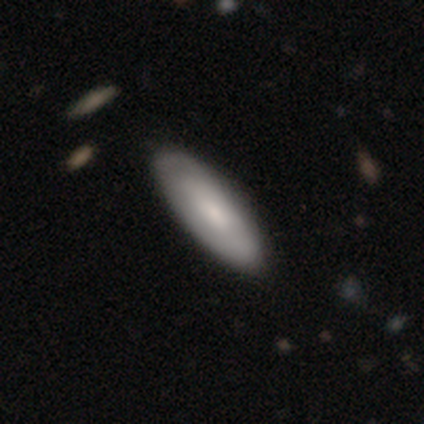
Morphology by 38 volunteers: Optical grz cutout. It shows a smooth galaxy with no disk features (61%) that is in between round and cigar-shaped (65%). Merging: none (59%).